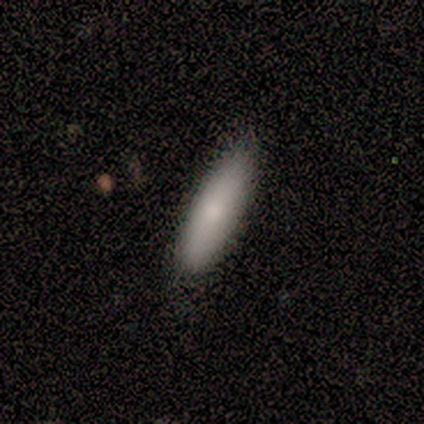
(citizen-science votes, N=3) smooth-or-featured: smooth: 100% | featured or disk: 0% | star or artifact: 0%
  how-rounded: cigar-shaped: 67% | in between: 33% | round: 0%
  merging: none: 67% | minor disturbance: 33% | major disturbance: 0% | merger: 0%